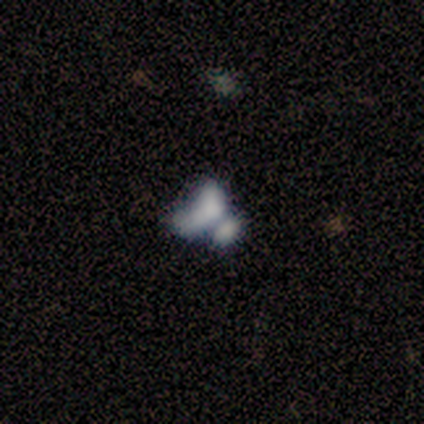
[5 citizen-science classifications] Smooth or featured: smooth — 40% (tied with featured or disk — 40%)
How rounded: round — 50% (tied with in between — 50%)
Merging: none — 50% (tied with merger — 50%)